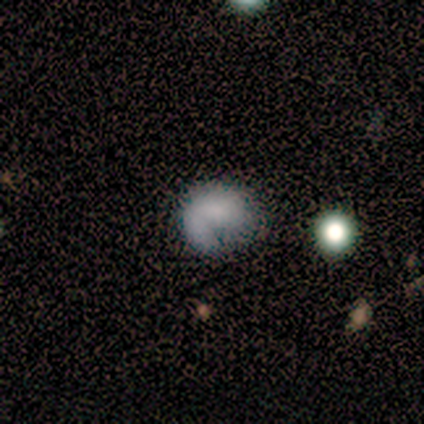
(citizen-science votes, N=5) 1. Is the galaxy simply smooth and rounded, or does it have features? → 60% smooth, 20% featured or disk, 20% star or artifact.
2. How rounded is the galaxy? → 100% round, 0% in between, 0% cigar-shaped.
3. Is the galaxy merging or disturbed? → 75% minor disturbance, 25% none, 0% major disturbance, 0% merger.